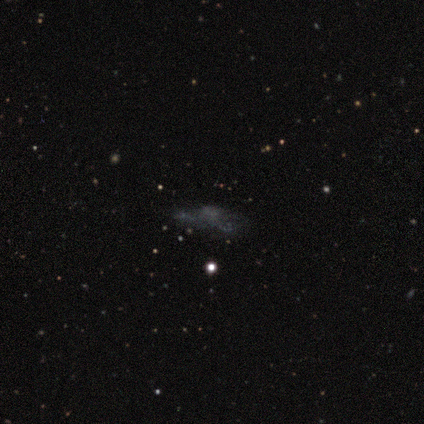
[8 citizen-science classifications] This is possibly a star or artifact rather than a galaxy (50%).